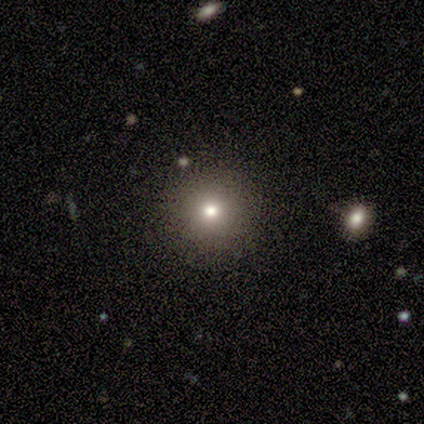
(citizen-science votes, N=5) Smooth or featured: smooth — 80% (featured or disk — 20%)
How rounded: round — 75% (in between — 25%)
Merging: none — 60% (minor disturbance — 40%)